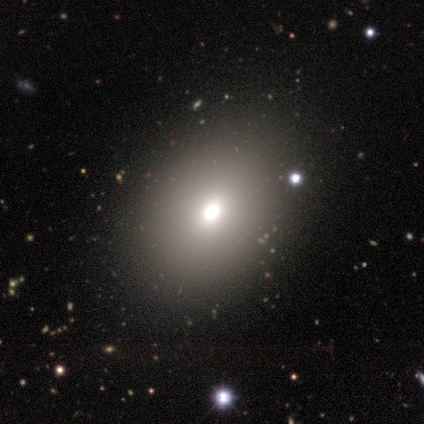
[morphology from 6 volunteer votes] smooth_or_featured: smooth (p=0.67) [alt: star or artifact p=0.33]
how_rounded: round (p=0.50) [tied with: in between p=0.50]
merging: minor disturbance (p=0.50) [alt: none p=0.25]